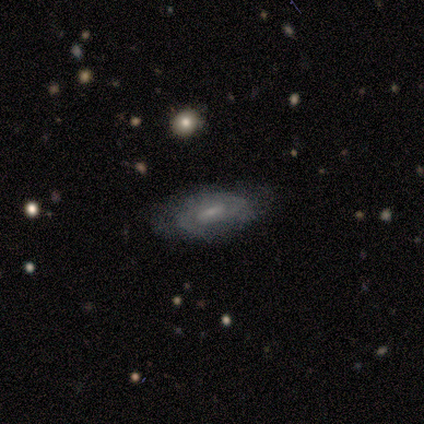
Smooth or featured? 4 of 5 (80%) said featured or disk. Edge-on disk? 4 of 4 (100%) said no. Bar? 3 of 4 (75%) said weak. Spiral arms? 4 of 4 (100%) said yes. Spiral winding? 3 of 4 (75%) said medium. Spiral arm count? 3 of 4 (75%) said 2. Bulge size? 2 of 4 (50%) said small. Merging? 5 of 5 (100%) said none.